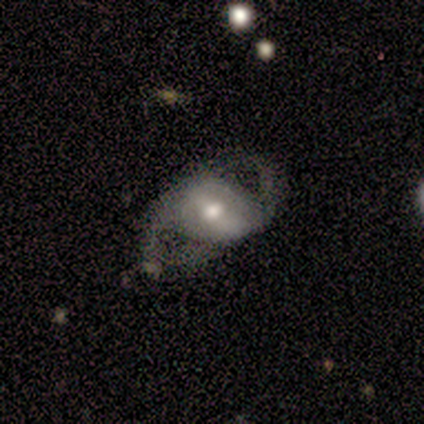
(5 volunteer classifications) A featured or disk galaxy (80%) with a weak bar (67%), 2 (100%) loose (67%) spiral arms (100%) and a moderate central bulge (67%). Merging: none (100%).